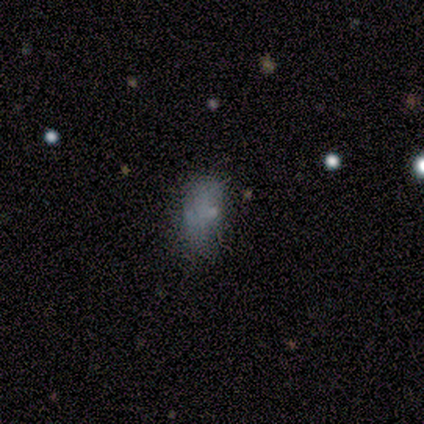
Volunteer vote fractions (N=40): Volunteers were most divided on "merging": none: 47%, minor disturbance: 33%, major disturbance: 13%, merger: 7%. More confident: how rounded — in between (86%); smooth or featured — smooth (52%).